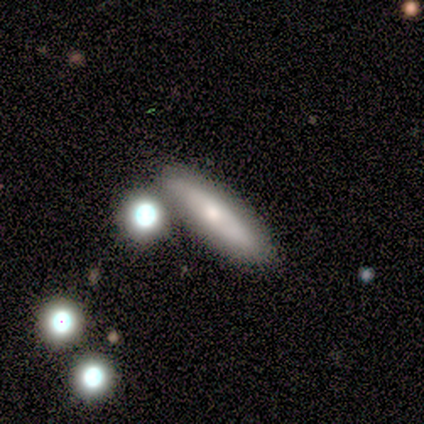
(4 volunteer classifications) A featured or disk galaxy (50%) viewed edge-on (50%, tied with no) with no central bulge (100%).

Vote fractions:
- Smooth or featured? featured or disk: 50% / smooth: 25% / star or artifact: 25%
- Edge-on disk? yes: 50% (tied) / no: 50% (tied)
- Edge-on bulge? none: 100% / boxy: 0% / rounded: 0%
- Merging? none: 100% / minor disturbance: 0% / major disturbance: 0% / merger: 0%